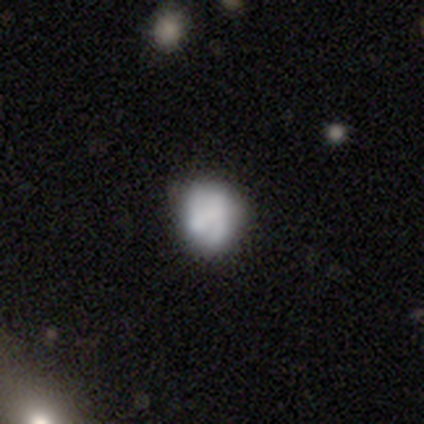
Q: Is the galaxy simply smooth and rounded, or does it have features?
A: smooth — 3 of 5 (60%).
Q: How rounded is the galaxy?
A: round — 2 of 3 (67%).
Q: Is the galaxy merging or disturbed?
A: none — 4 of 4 (100%).